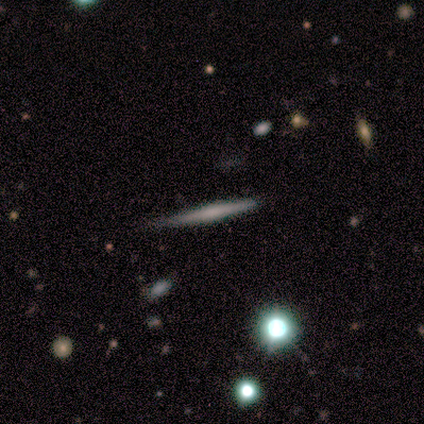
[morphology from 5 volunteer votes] This appears to be a featured or disk galaxy (60%) viewed edge-on (100%) with a boxy central bulge (33%, tied with none and rounded). Merging: none (100%).